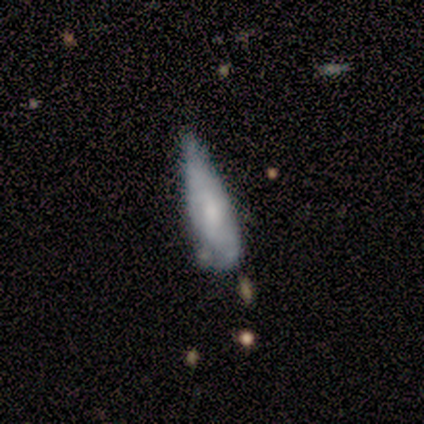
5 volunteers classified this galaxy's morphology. type=smooth (60%); roundness=cigar-shaped (67%); merging=minor disturbance (80%).